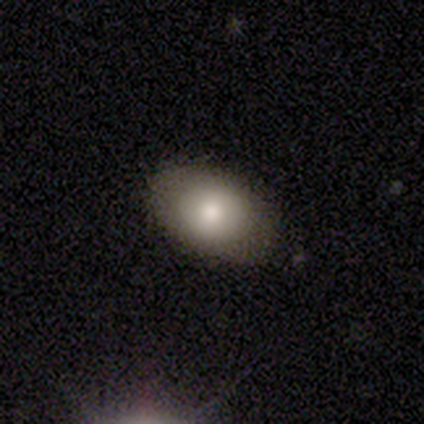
Q: Smooth or featured?
A: smooth (79%); runner-up: featured or disk (13%)
Q: How rounded?
A: in between (81%); runner-up: round (16%)
Q: Merging?
A: none (86%); runner-up: minor disturbance (14%)